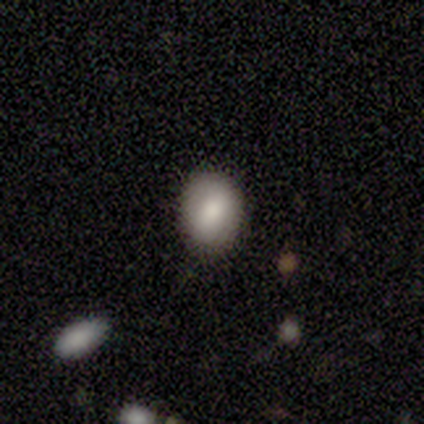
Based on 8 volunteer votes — Q: Smooth or featured?
A: smooth (75%); runner-up: featured or disk (25%)
Q: How rounded?
A: in between (67%); runner-up: round (33%)
Q: Merging?
A: none (88%); runner-up: minor disturbance (12%)